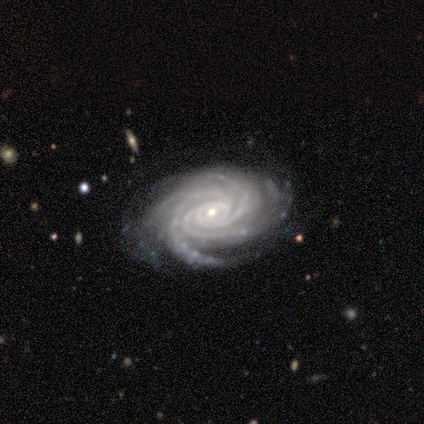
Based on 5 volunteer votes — smooth_or_featured: featured or disk (p=1.00)
disk_edge_on: no (p=1.00)
bar: no (p=0.80) [alt: strong p=0.20]
has_spiral_arms: yes (p=1.00)
spiral_winding: tight (p=0.80) [alt: medium p=0.20]
spiral_arm_count: 4 (p=0.40) [tied with: more than 4 p=0.40]
bulge_size: small (p=0.80) [alt: moderate p=0.20]
merging: none (p=1.00)